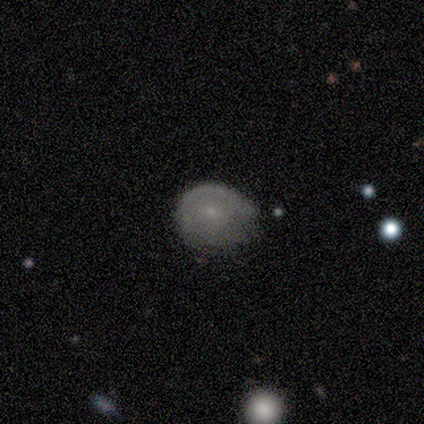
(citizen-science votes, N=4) smooth-or-featured: smooth: 50% | featured or disk: 25% | star or artifact: 25%
  how-rounded: round: 50% (tied) | in between: 50% (tied) | cigar-shaped: 0%
  merging: none: 33% (tied) | minor disturbance: 33% (tied) | major disturbance: 33% (tied) | merger: 0%